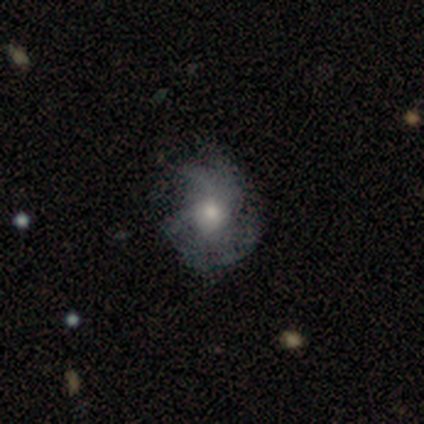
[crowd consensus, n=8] Q: Smooth or featured?
A: featured or disk (88%); runner-up: smooth (12%)
Q: Edge-on disk?
A: no (100%)
Q: Bar?
A: no (86%); runner-up: strong (14%)
Q: Spiral arms?
A: yes (71%); runner-up: no (29%)
Q: Spiral winding?
A: medium (80%); runner-up: tight (20%)
Q: Spiral arm count?
A: 2 (20%); tied with: 3 (20%); 4 (20%); more than 4 (20%); can't tell (20%)
Q: Bulge size?
A: moderate (100%)
Q: Merging?
A: none (75%); runner-up: minor disturbance (25%)